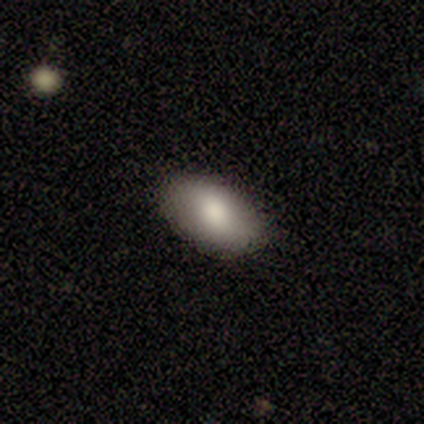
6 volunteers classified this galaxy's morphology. This appears to be a smooth galaxy with no disk features (83%) that is in between round and cigar-shaped (100%). Merging: none (100%).